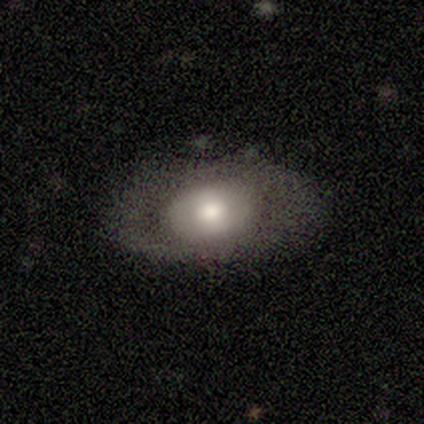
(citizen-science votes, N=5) This is likely a featured or disk galaxy (60%). It is clearly not viewed edge-on (100%). Bar: likely no (67%). Spiral arm pattern: likely no (67%). Central bulge: likely moderate (67%). Merging: likely none (75%).